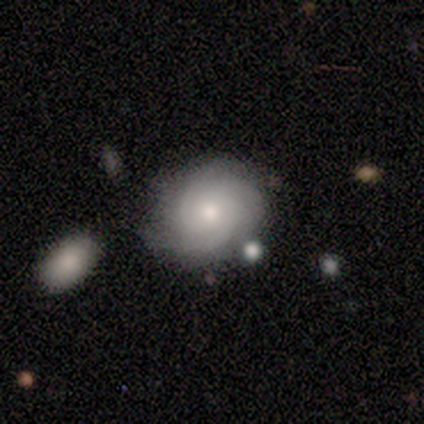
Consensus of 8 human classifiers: This appears to be a featured or disk galaxy (62%) with no bar (100%), tight (100%) spiral arms (80%) and a moderate central bulge (40%, tied with small). Merging: none (50%).